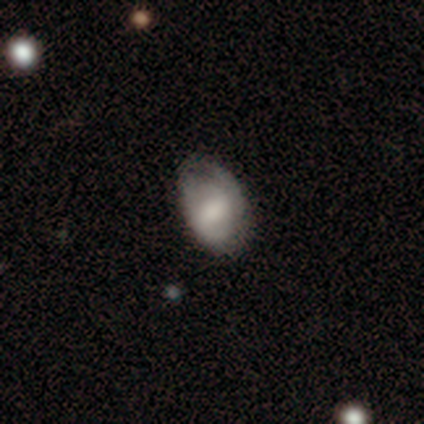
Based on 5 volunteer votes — This appears to be a smooth galaxy with no disk features (60%) that is in between round and cigar-shaped (100%). Merging: none (60%).